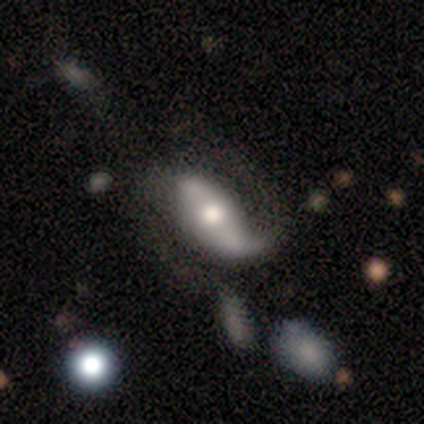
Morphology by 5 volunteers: Smooth or featured? featured or disk (60%)
Edge-on disk? no (100%)
Bar? strong (33%, tied with weak and no)
Spiral arms? yes (100%)
Spiral winding? medium (67%)
Spiral arm count? 2 (67%)
Bulge size? large (33%, tied with moderate and small)
Merging? none (40%, tied with minor disturbance)